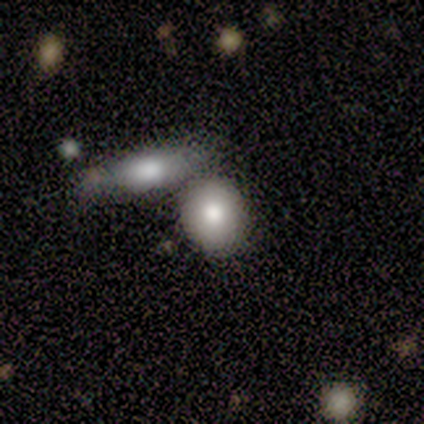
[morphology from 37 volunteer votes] Smooth or featured? 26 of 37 (70%) said smooth. How rounded? 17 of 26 (65%) said round. Merging? 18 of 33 (55%) said none.